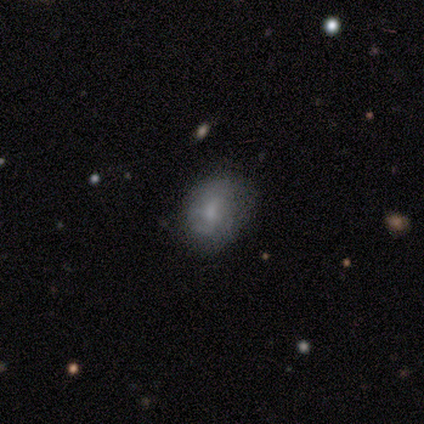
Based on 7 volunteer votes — Q: Smooth or featured?
A: smooth (71%); runner-up: featured or disk (29%)
Q: How rounded?
A: in between (80%); runner-up: round (20%)
Q: Merging?
A: none (71%); runner-up: minor disturbance (29%)